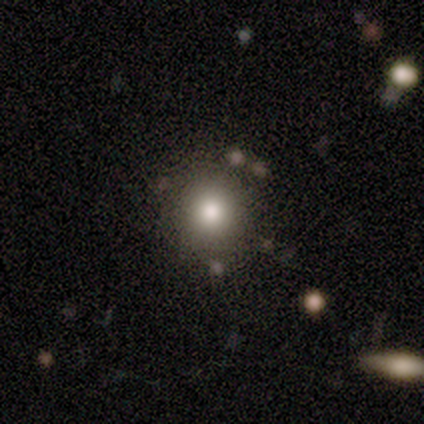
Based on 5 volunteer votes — This appears to be a smooth galaxy with no disk features (60%) that is round (100%). Merging: none (75%).